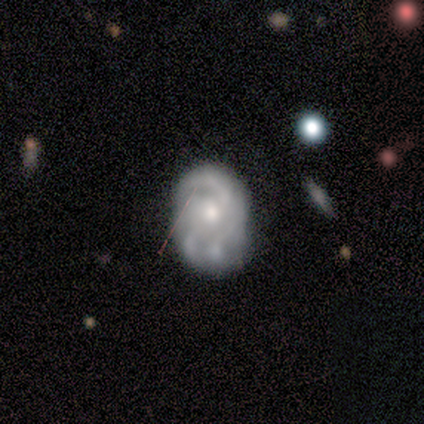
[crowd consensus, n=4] This is likely a featured or disk galaxy (75%). It is clearly not viewed edge-on (100%). Bar: marginally strong (33%, tied with weak and no). Spiral arm pattern: clearly yes (100%). Spiral arm count: clearly 2 (100%). Spiral winding: marginally tight (33%, tied with medium and loose). Central bulge: likely small (67%). Merging: possibly none (50%).